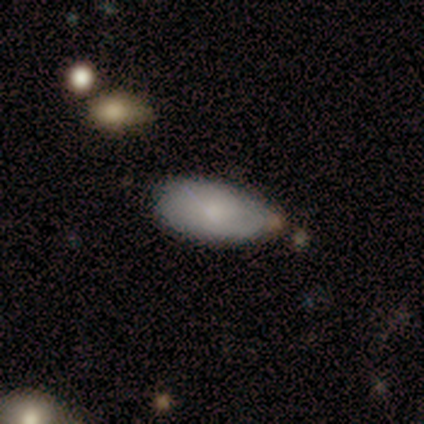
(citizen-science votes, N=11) Smooth or featured?
  - smooth: 73% *
  - featured or disk: 27%
  - star or artifact: 0%
How rounded?
  - in between: 100% *
  - round: 0%
  - cigar-shaped: 0%
Merging?
  - none: 45% *
  - minor disturbance: 36%
  - major disturbance: 18%
  - merger: 0%